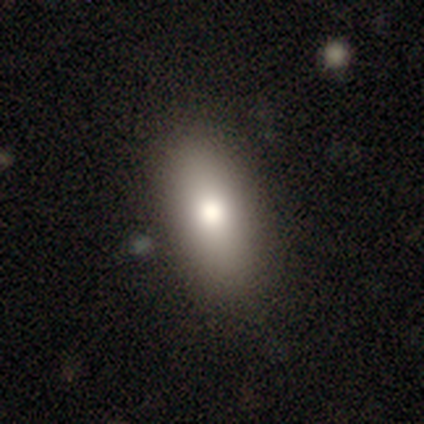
Smooth or featured? smooth (83%)
How rounded? in between (80%)
Merging? none (80%)